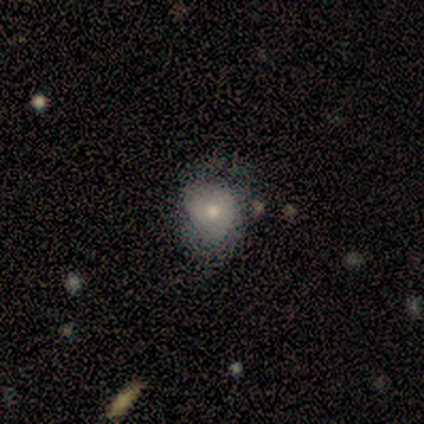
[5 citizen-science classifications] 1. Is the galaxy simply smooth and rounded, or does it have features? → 60% smooth, 40% featured or disk, 0% star or artifact.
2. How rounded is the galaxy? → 100% round, 0% in between, 0% cigar-shaped.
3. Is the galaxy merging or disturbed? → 40% minor disturbance (tied), 40% major disturbance (tied), 20% none, 0% merger.